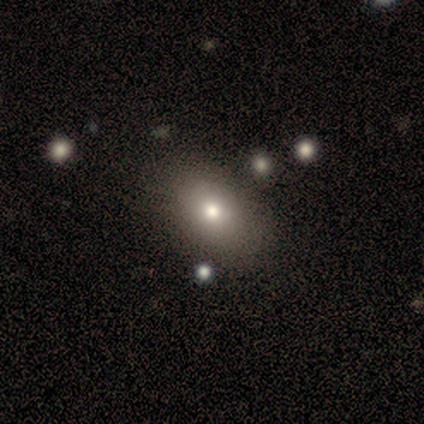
smooth 87%, featured or disk 13%, star or artifact 0%. Down the decision tree: how rounded — in between (77%); merging — none (80%).